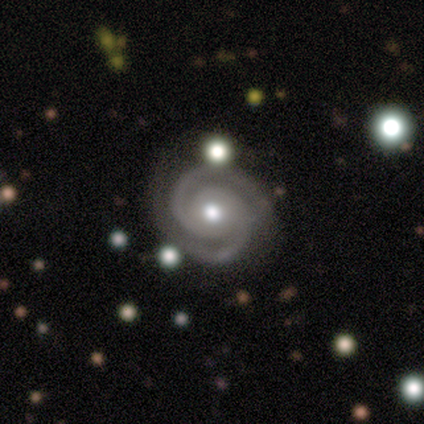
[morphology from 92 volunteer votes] Smooth or featured: featured or disk — 96% (smooth — 3%)
Edge-on disk: no — 100%
Bar: no — 84% (weak — 10%)
Spiral arms: yes — 99% (no — 1%)
Spiral winding: tight — 75% (medium — 22%)
Spiral arm count: 2 — 94% (3 — 3%)
Bulge size: moderate — 75% (small — 16%)
Merging: none — 76% (minor disturbance — 16%)